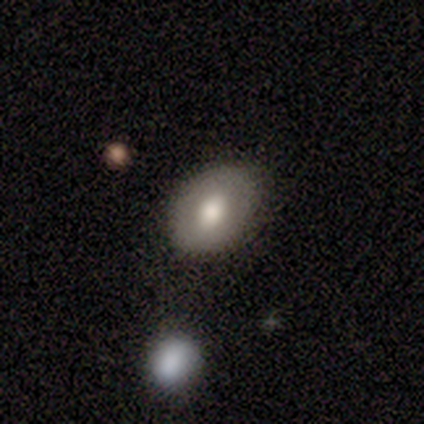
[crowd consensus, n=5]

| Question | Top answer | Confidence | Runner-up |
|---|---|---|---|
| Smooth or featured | smooth | 80% | star or artifact (20%) |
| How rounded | round | 75% | in between (25%) |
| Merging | none | 100% | — |